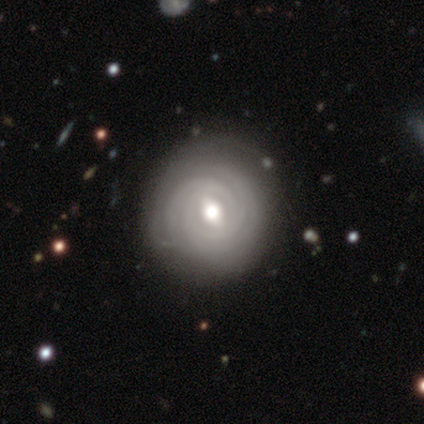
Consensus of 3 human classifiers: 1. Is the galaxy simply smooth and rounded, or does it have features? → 100% featured or disk, 0% smooth, 0% star or artifact.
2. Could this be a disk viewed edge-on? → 100% no, 0% yes.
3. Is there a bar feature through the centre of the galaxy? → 100% weak, 0% strong, 0% no.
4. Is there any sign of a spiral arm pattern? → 100% yes, 0% no.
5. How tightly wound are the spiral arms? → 100% tight, 0% medium, 0% loose.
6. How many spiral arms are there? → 67% can't tell, 33% 3, 0% 1, 0% 2, 0% 4, 0% more than 4.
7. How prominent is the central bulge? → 100% moderate, 0% dominant, 0% large, 0% small, 0% none.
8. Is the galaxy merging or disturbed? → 67% none, 33% minor disturbance, 0% major disturbance, 0% merger.